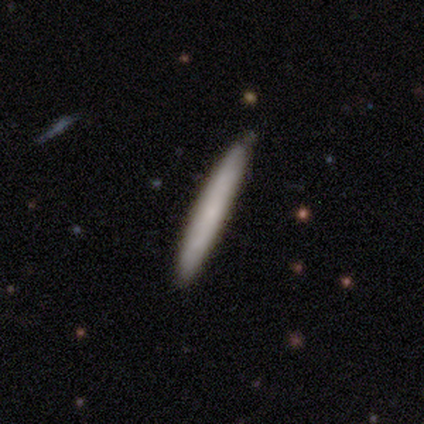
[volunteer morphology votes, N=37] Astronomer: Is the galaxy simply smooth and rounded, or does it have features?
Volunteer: smooth — 73%.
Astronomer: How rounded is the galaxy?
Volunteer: cigar-shaped — 96%.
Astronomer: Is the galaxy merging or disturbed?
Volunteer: none — 75%.